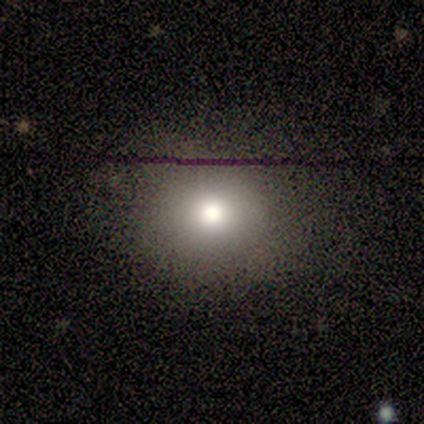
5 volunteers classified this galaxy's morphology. Overall: smooth (100%). How rounded: round (80%). Merging: none (80%).